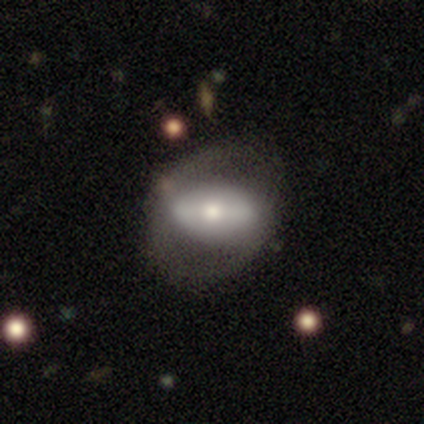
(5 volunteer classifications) smooth-or-featured: smooth: 60% | featured or disk: 40% | star or artifact: 0%
  how-rounded: in between: 67% | round: 33% | cigar-shaped: 0%
  merging: none: 60% | major disturbance: 40% | minor disturbance: 0% | merger: 0%